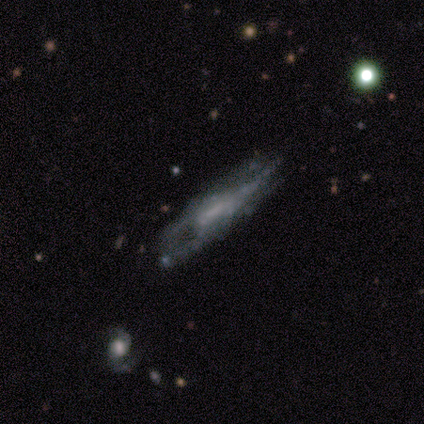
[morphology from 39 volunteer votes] smooth-or-featured: featured or disk: 64% | smooth: 28% | star or artifact: 8%
  disk-edge-on: no: 84% | yes: 16%
    bar: no: 57% | weak: 43% | strong: 0%
    has-spiral-arms: no: 62% | yes: 38%
    bulge-size: none: 81% | moderate: 10% | small: 10% | dominant: 0% | large: 0%
  merging: minor disturbance: 47% | major disturbance: 28% | none: 22% | merger: 3%